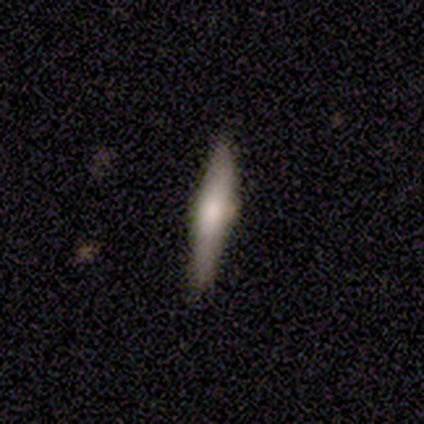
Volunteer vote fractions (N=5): This is clearly a featured or disk galaxy (80%). It is clearly viewed edge-on (100%). Edge-on bulge: clearly rounded (100%). Merging: clearly none (80%).